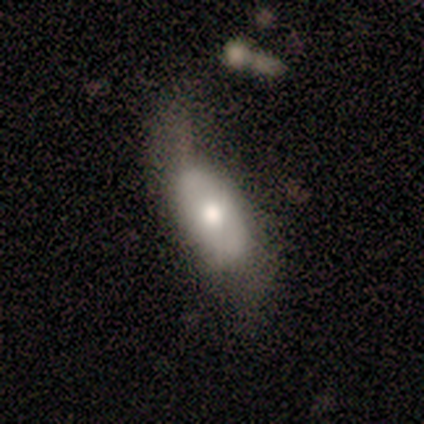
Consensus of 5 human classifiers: smooth 60%, featured or disk 20%, star or artifact 20%. Down the decision tree: how rounded — in between (100%); merging — major disturbance (50%).